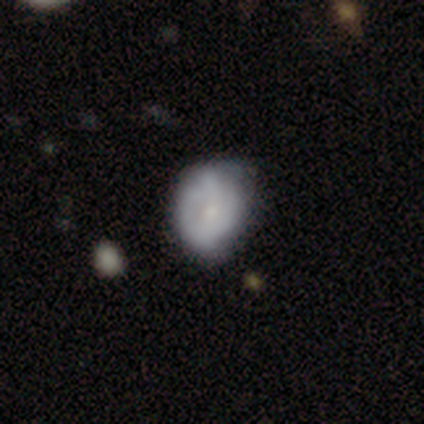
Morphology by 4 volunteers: A smooth galaxy with no disk features (50%, tied with featured or disk) that is round (50%, tied with in between).

Vote fractions:
- Smooth or featured? smooth: 50% (tied) / featured or disk: 50% (tied) / star or artifact: 0%
- How rounded? round: 50% (tied) / in between: 50% (tied) / cigar-shaped: 0%
- Merging? minor disturbance: 75% / none: 25% / major disturbance: 0% / merger: 0%